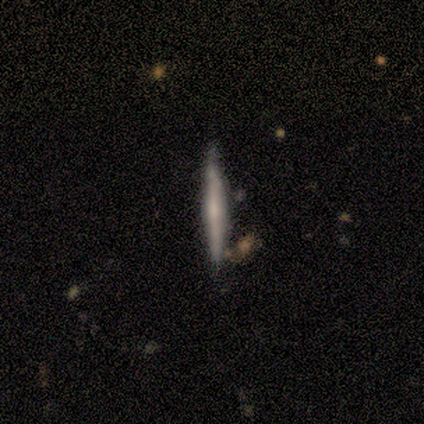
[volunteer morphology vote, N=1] Smooth or featured?
  - featured or disk: 100% *
  - smooth: 0%
  - star or artifact: 0%
Edge-on disk?
  - yes: 100% *
  - no: 0%
Edge-on bulge?
  - none: 100% *
  - boxy: 0%
  - rounded: 0%
Merging?
  - none: 100% *
  - minor disturbance: 0%
  - major disturbance: 0%
  - merger: 0%